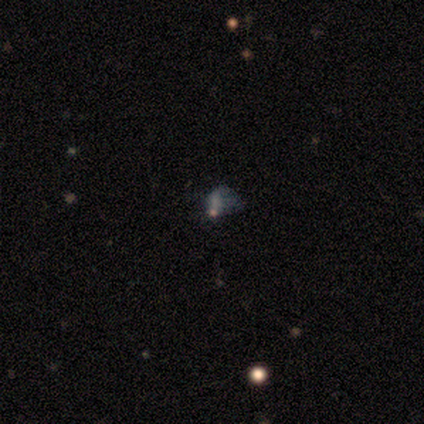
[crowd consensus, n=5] This appears to be a star or artifact, not a galaxy (60%).